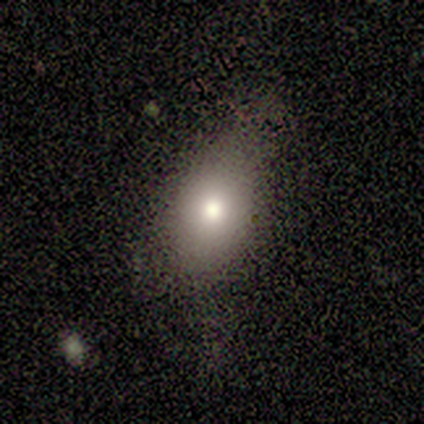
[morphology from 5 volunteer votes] smooth-or-featured: smooth: 80% | featured or disk: 20% | star or artifact: 0%
  how-rounded: in between: 75% | round: 25% | cigar-shaped: 0%
  merging: none: 40% (tied) | minor disturbance: 40% (tied) | major disturbance: 20% | merger: 0%